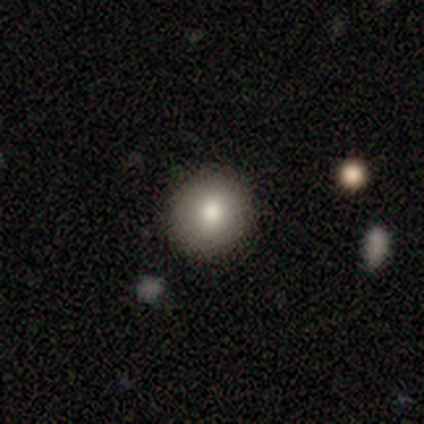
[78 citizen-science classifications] Smooth or featured? smooth (83%)
How rounded? round (89%)
Merging? none (96%)